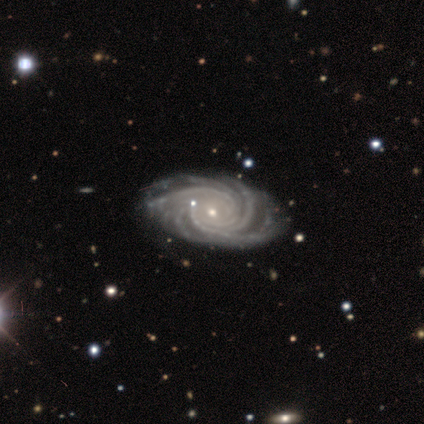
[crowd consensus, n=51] featured or disk 96%, smooth 2%, star or artifact 2%. Down the decision tree: edge-on disk — no (100%); bar — no (69%); spiral arms — yes (100%); spiral arm count — more than 4 (57%); spiral winding — tight (78%); bulge size — small (82%); merging — none (66%).